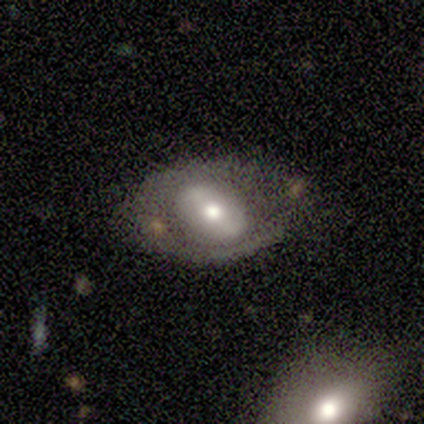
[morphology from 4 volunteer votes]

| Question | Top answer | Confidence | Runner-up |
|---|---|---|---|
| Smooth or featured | featured or disk | 75% | smooth (25%) |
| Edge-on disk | no | 100% | — |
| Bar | weak | 67% | no (33%) |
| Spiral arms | no | 67% | yes (33%) |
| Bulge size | small | 67% | large (33%) |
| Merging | none | 50% | tied: minor disturbance (50%) |